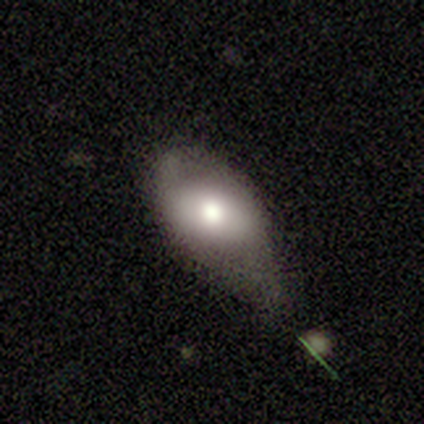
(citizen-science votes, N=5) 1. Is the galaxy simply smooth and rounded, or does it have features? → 80% smooth, 20% featured or disk, 0% star or artifact.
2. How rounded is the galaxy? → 100% in between, 0% round, 0% cigar-shaped.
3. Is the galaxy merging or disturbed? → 40% minor disturbance (tied), 40% major disturbance (tied), 20% none, 0% merger.